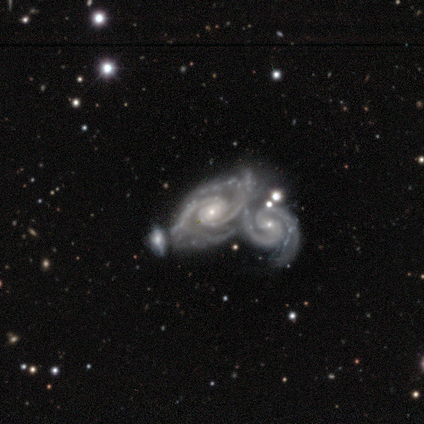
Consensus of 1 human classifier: smooth_or_featured: featured or disk (p=1.00)
disk_edge_on: no (p=1.00)
bar: no (p=1.00)
has_spiral_arms: yes (p=1.00)
spiral_winding: medium (p=1.00)
spiral_arm_count: 2 (p=1.00)
bulge_size: moderate (p=1.00)
merging: merger (p=1.00)